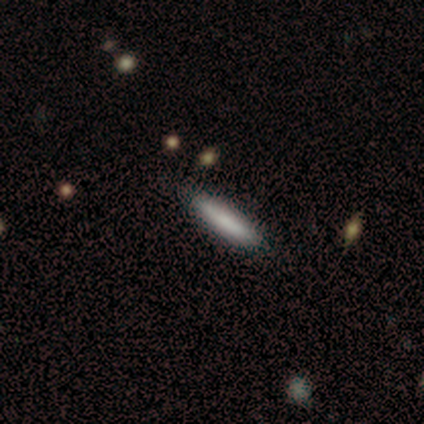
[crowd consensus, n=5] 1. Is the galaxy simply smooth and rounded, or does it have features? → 60% smooth, 40% featured or disk, 0% star or artifact.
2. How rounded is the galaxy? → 67% cigar-shaped, 33% in between, 0% round.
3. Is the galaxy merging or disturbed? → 60% none, 20% minor disturbance, 20% major disturbance, 0% merger.